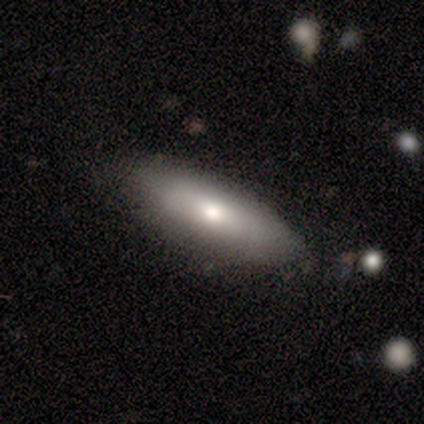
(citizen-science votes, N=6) Smooth or featured: smooth — 67% (featured or disk — 17%)
How rounded: in between — 75% (cigar-shaped — 25%)
Merging: none — 100%